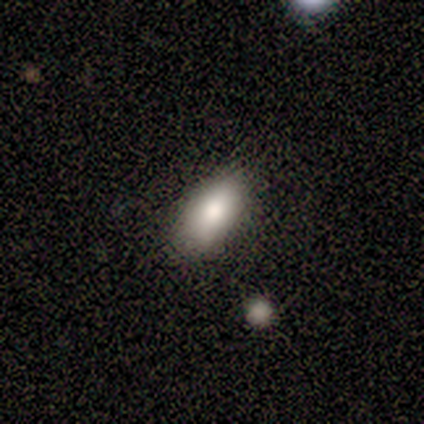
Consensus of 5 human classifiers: Q: Smooth or featured?
A: smooth (80%); runner-up: star or artifact (20%)
Q: How rounded?
A: in between (75%); runner-up: round (25%)
Q: Merging?
A: none (50%); tied with: minor disturbance (50%)